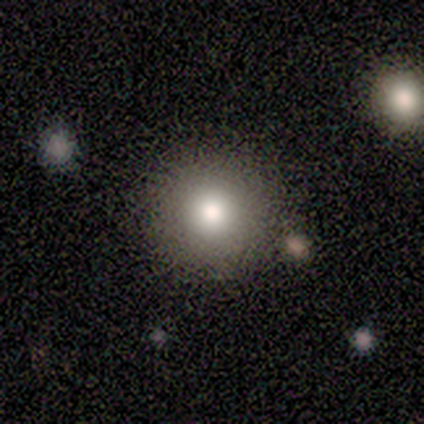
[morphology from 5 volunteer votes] Smooth or featured: smooth — 60% (featured or disk — 20%)
How rounded: round — 100%
Merging: none — 100%